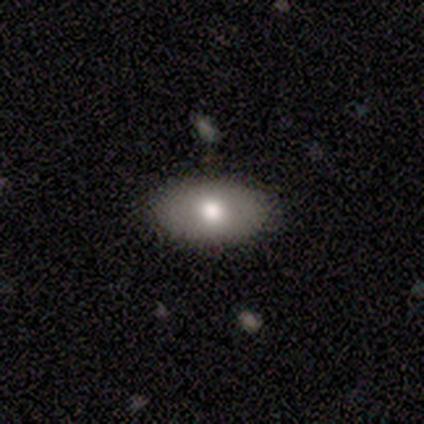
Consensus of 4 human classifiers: smooth_or_featured: smooth (p=0.50) [tied with: featured or disk p=0.50]
how_rounded: in between (p=1.00)
merging: none (p=0.50) [tied with: minor disturbance p=0.50]